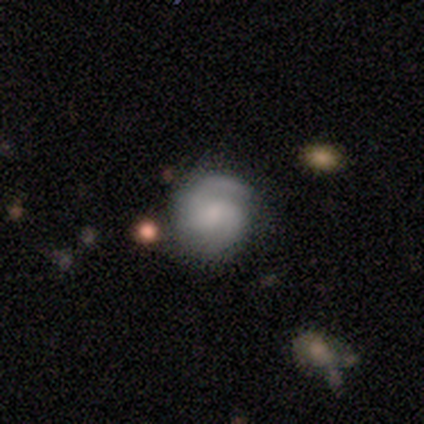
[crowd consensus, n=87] Smooth or featured: featured or disk — 69% (smooth — 21%)
Edge-on disk: no — 100%
Bar: no — 57% (weak — 35%)
Spiral arms: yes — 95% (no — 5%)
Spiral winding: medium — 49% (tight — 40%)
Spiral arm count: 2 — 79% (1 — 12%)
Bulge size: small — 60% (moderate — 18%)
Merging: none — 79% (minor disturbance — 13%)